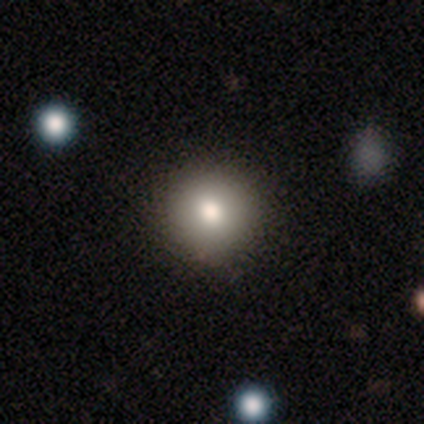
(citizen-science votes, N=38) A smooth galaxy with no disk features (76%) that is round (93%). Merging: none (79%).